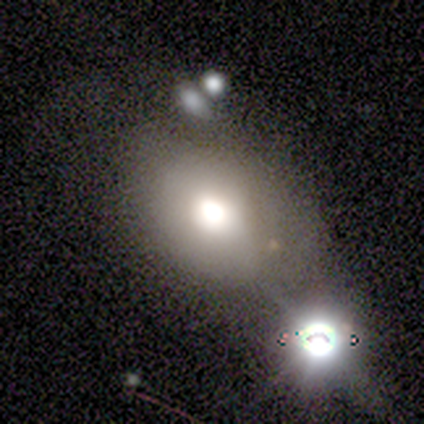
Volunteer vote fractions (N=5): Smooth or featured?
  - smooth: 60% *
  - featured or disk: 40%
  - star or artifact: 0%
How rounded?
  - round: 67% *
  - in between: 33%
  - cigar-shaped: 0%
Merging?
  - none: 40% * (tied)
  - merger: 40% * (tied)
  - major disturbance: 20%
  - minor disturbance: 0%